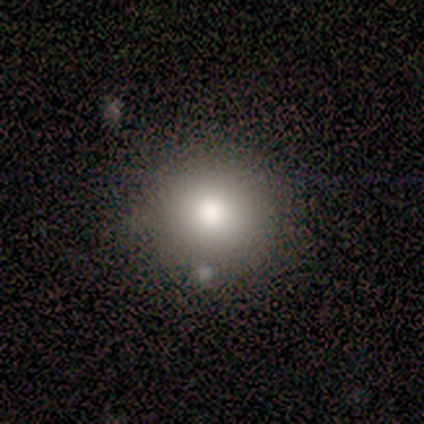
smooth_or_featured: smooth (p=0.86) [alt: featured or disk p=0.14]
how_rounded: round (p=0.92) [alt: in between p=0.08]
merging: none (p=0.93) [alt: minor disturbance p=0.07]